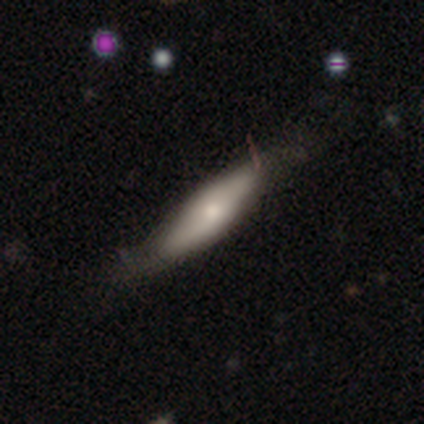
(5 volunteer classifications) Overall: smooth (80%). How rounded: in between (75%). Merging: none (80%).